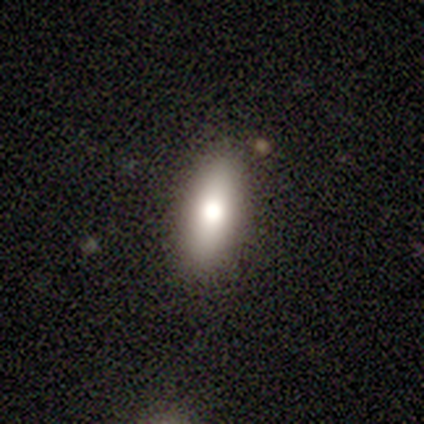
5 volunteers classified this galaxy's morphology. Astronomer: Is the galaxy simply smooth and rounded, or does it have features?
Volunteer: smooth — 60%.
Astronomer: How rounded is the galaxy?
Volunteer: in between — 100%.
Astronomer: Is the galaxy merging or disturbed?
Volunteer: none — 100%.